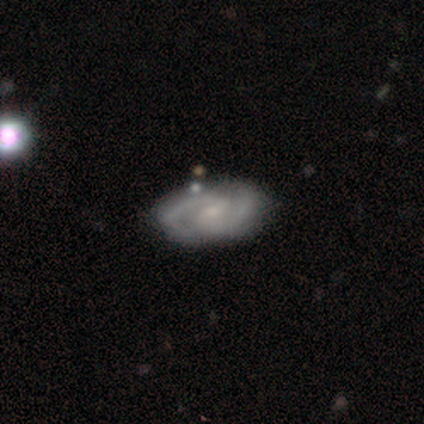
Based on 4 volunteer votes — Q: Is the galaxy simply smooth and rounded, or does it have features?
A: featured or disk — 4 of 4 (100%).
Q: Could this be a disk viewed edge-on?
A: no — 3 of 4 (75%).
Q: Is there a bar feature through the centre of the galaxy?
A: weak — 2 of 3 (67%).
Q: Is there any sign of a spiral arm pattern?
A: yes — 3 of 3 (100%).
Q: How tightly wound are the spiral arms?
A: tight — 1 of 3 (33%, tied with medium and loose).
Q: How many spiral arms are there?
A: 2 — 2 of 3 (67%).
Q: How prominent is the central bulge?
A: small — 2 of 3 (67%).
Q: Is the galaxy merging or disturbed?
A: none — 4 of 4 (100%).